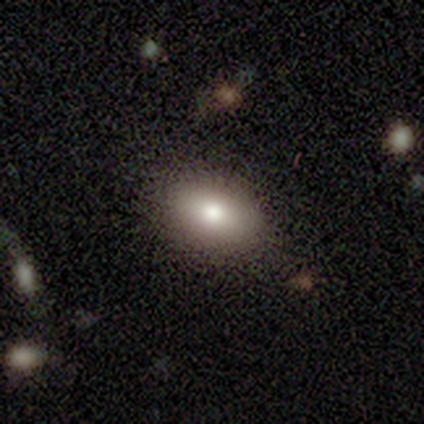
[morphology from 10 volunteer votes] A smooth galaxy with no disk features (90%) that is in between round and cigar-shaped (100%).

Vote fractions:
- Smooth or featured? smooth: 90% / featured or disk: 10% / star or artifact: 0%
- How rounded? in between: 100% / round: 0% / cigar-shaped: 0%
- Merging? none: 100% / minor disturbance: 0% / major disturbance: 0% / merger: 0%